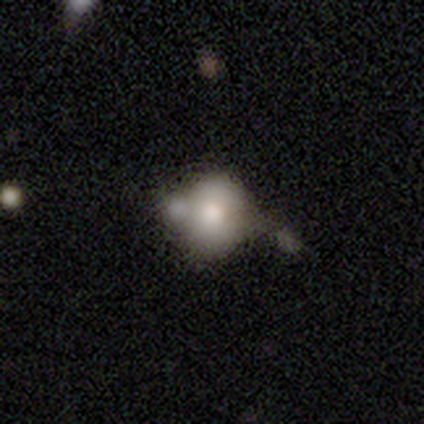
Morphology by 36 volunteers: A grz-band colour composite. It shows a smooth galaxy with no disk features (56%) that is round (60%). Merging: merger (53%).